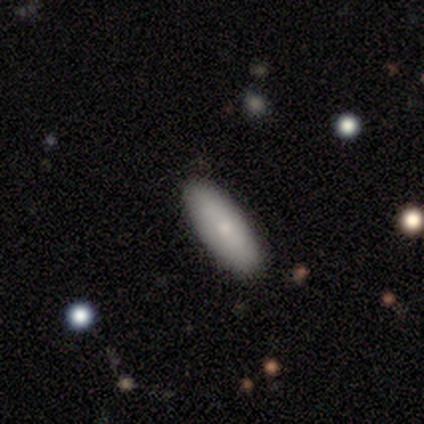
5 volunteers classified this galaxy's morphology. Q: Smooth or featured?
A: smooth (100%)
Q: How rounded?
A: in between (60%); runner-up: cigar-shaped (40%)
Q: Merging?
A: none (100%)